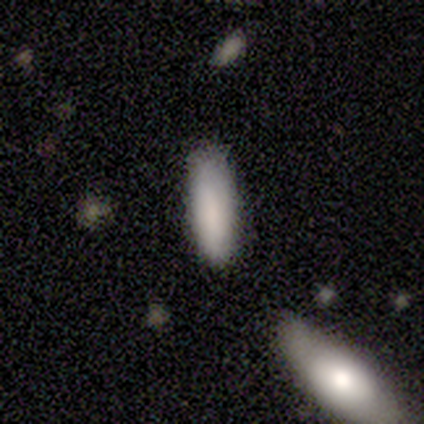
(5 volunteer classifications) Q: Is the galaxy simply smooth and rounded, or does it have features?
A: smooth — 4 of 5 (80%).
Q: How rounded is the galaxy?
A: in between — 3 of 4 (75%).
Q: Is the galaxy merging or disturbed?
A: none — 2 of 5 (40%).